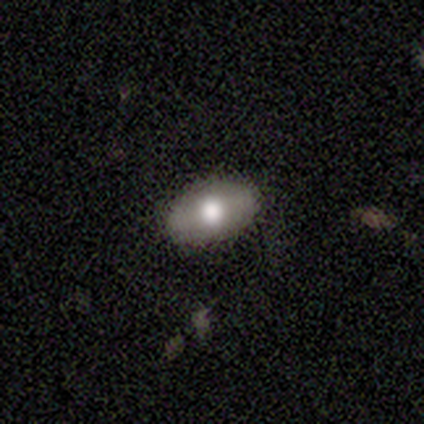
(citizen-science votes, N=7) Smooth or featured? 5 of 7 (71%) said smooth. How rounded? 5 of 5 (100%) said in between. Merging? 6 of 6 (100%) said none.